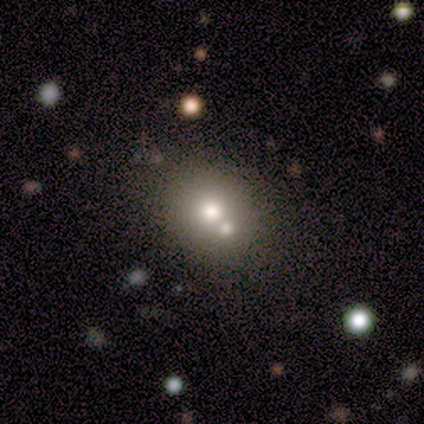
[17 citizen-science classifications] Morphology: type=smooth (65%); roundness=round (91%); merging=none (57%).